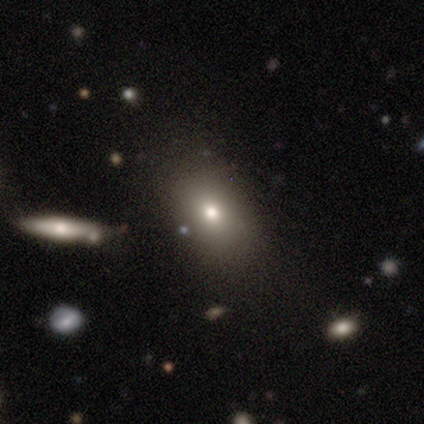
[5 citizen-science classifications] Smooth or featured? smooth (80%)
How rounded? in between (100%)
Merging? none (80%)